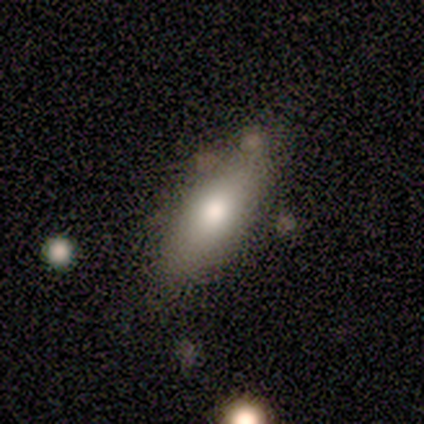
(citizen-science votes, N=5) smooth_or_featured: smooth (p=0.80) [alt: star or artifact p=0.20]
how_rounded: in between (p=1.00)
merging: none (p=0.50) [tied with: minor disturbance p=0.50]